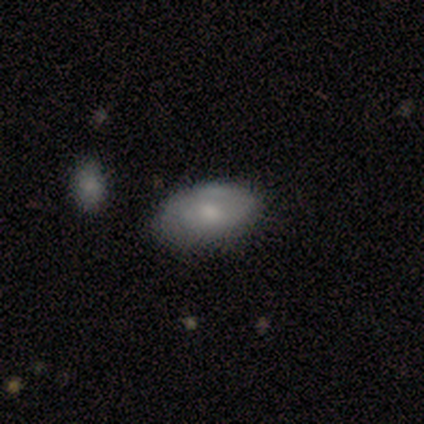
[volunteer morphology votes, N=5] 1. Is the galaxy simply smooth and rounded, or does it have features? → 80% smooth, 20% featured or disk, 0% star or artifact.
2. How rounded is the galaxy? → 100% in between, 0% round, 0% cigar-shaped.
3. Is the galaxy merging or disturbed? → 80% none, 20% minor disturbance, 0% major disturbance, 0% merger.